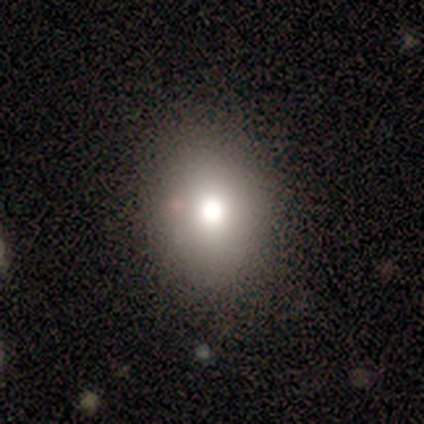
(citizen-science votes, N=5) Morphology: type=smooth (80%); roundness=round (50%, tied with in between); merging=none (80%).